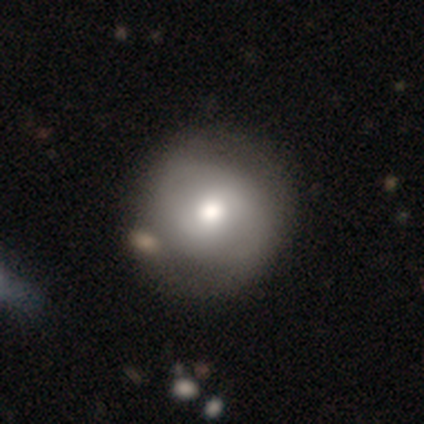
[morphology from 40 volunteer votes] Q: Smooth or featured?
A: smooth (75%); runner-up: featured or disk (25%)
Q: How rounded?
A: round (97%); runner-up: in between (3%)
Q: Merging?
A: none (48%); runner-up: merger (18%)